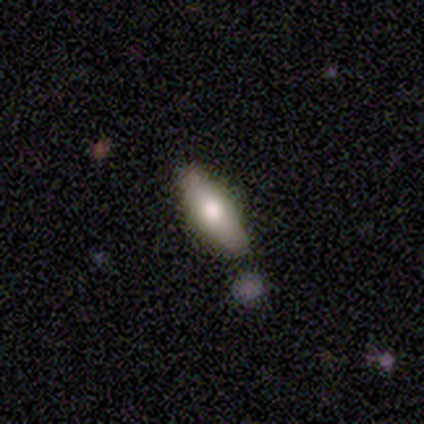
Overall: smooth (80%). How rounded: in between (50%, tied with cigar-shaped). Merging: none (80%).